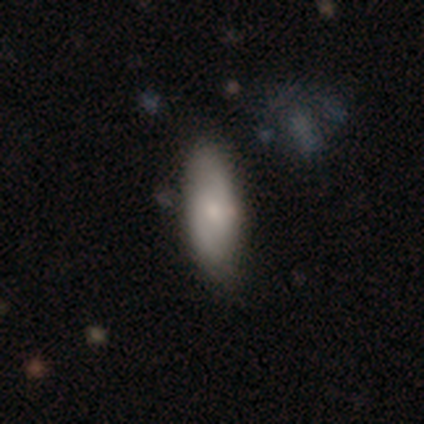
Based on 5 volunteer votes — Volunteers were most divided on "how rounded" (2-way tie): in between: 50%, cigar-shaped: 50%, round: 0%. More confident: smooth or featured — smooth (80%); merging — none (80%).